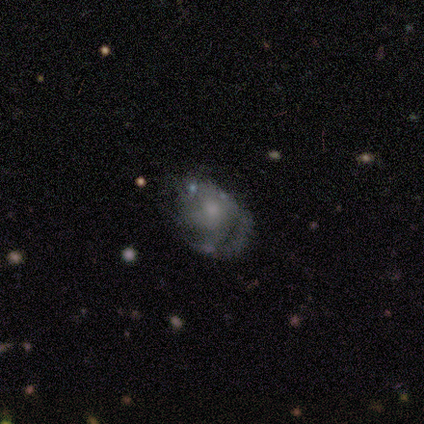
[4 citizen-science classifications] A featured or disk galaxy (100%) with a weak bar (50%, tied with no), 2 (50%, tied with can't tell) medium (50%, tied with loose) spiral arms (100%) and a small central bulge (50%). Merging: none (75%).